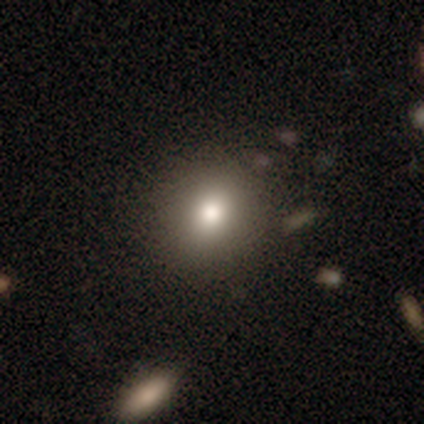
smooth-or-featured: smooth: 69% | star or artifact: 20% | featured or disk: 11%
  how-rounded: round: 81% | in between: 19% | cigar-shaped: 0%
  merging: none: 83% | minor disturbance: 10% | major disturbance: 4% | merger: 4%